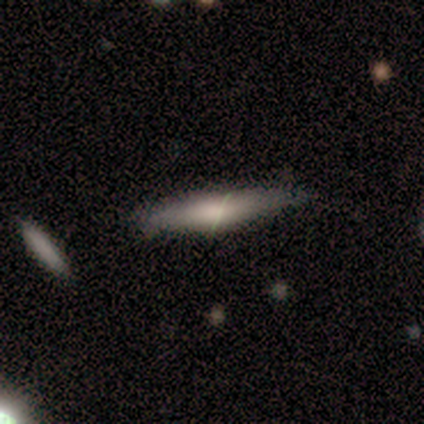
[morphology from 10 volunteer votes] smooth 70%, featured or disk 30%, star or artifact 0%. Down the decision tree: how rounded — cigar-shaped (71%); merging — minor disturbance (60%).